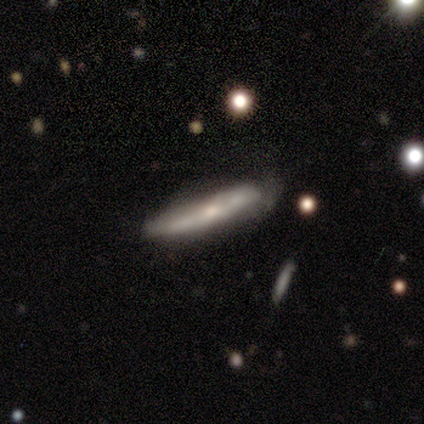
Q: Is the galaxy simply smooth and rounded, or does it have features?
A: featured or disk — 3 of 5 (60%).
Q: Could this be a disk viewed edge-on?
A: yes — 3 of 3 (100%).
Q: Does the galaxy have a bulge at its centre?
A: rounded — 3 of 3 (100%).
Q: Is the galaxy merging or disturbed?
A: none — 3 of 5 (60%).